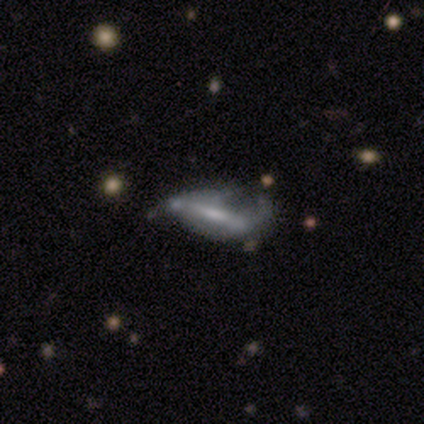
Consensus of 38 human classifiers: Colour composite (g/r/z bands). It shows a featured or disk galaxy (53%) with a strong bar (50%), 2 (75%) medium (50%) spiral arms (57%) and a small central bulge (57%). Merging: major disturbance (48%).